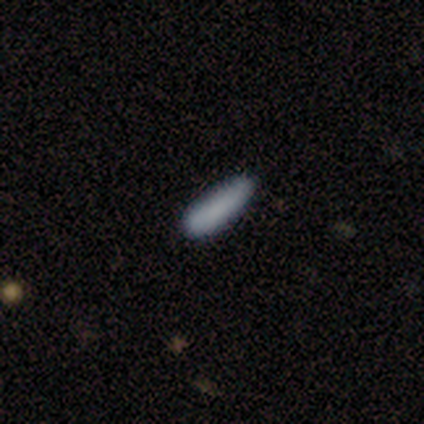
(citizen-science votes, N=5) smooth_or_featured: smooth (p=1.00)
how_rounded: cigar-shaped (p=1.00)
merging: none (p=0.80) [alt: minor disturbance p=0.20]